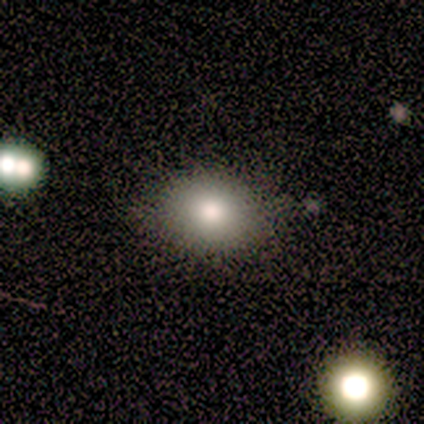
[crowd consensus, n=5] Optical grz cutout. It shows a smooth galaxy with no disk features (60%) that is round (67%). Merging: none (80%).